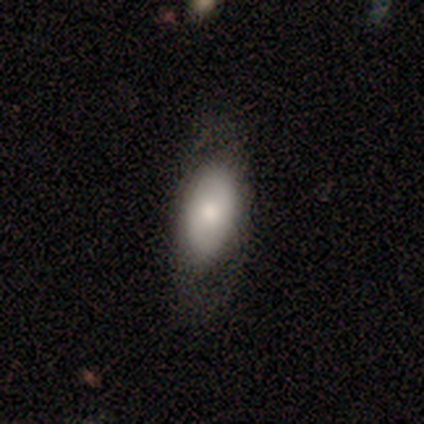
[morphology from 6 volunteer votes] Volunteers were most divided on "merging": none: 67%, minor disturbance: 33%, major disturbance: 0%, merger: 0%. More confident: smooth or featured — smooth (83%); how rounded — in between (80%).